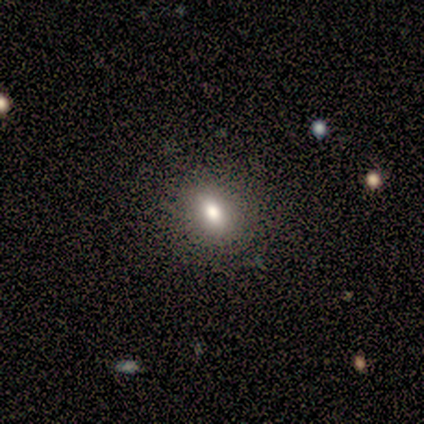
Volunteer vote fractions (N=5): This appears to be a smooth galaxy with no disk features (60%) that is round (67%). Merging: none (100%).